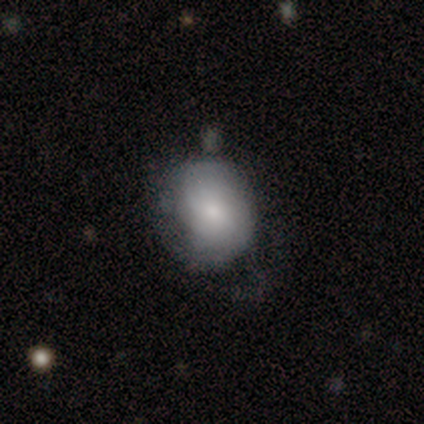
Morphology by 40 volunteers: Smooth or featured? 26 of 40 (65%) said smooth. How rounded? 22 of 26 (85%) said round. Merging? 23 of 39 (59%) said none.